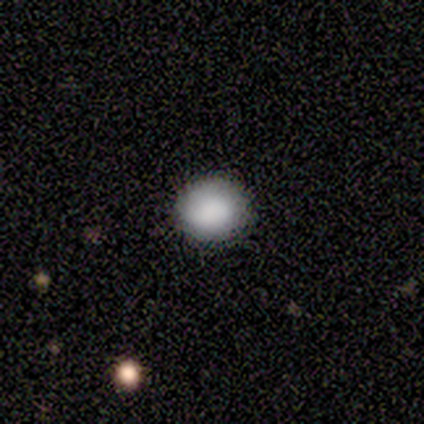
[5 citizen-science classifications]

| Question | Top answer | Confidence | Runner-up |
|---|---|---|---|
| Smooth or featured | smooth | 80% | featured or disk (20%) |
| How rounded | round | 100% | — |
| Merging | none | 100% | — |